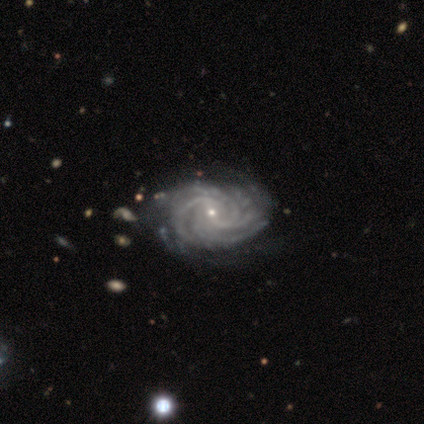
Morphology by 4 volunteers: Smooth or featured? 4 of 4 (100%) said featured or disk. Edge-on disk? 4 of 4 (100%) said no. Bar? 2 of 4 (50%) said strong. Spiral arms? 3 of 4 (75%) said yes. Spiral winding? 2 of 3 (67%) said tight. Spiral arm count? 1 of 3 (33%, tied with 4 and can't tell) said 3. Bulge size? 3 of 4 (75%) said small. Merging? 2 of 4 (50%, tied with minor disturbance) said none.